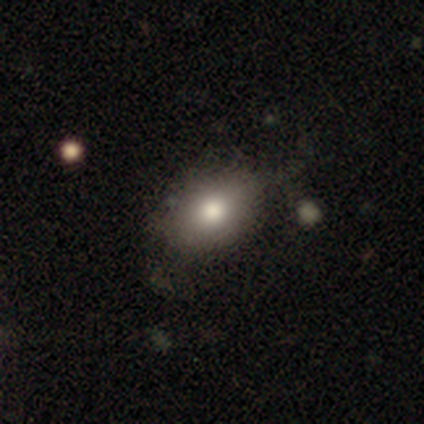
A smooth galaxy with no disk features (100%) that is in between round and cigar-shaped (80%). Merging: none (80%).